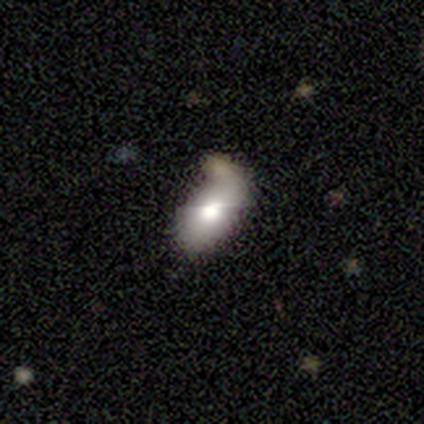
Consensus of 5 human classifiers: Smooth or featured: smooth — 80% (featured or disk — 20%)
How rounded: in between — 50% (round — 25%)
Merging: none — 40% (tied with merger — 40%)